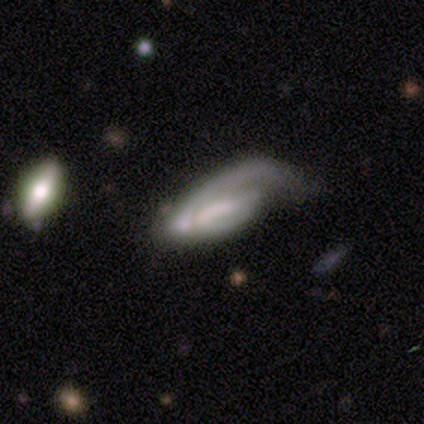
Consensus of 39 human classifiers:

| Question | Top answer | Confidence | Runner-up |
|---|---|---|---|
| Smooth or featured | featured or disk | 64% | smooth (28%) |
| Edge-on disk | no | 96% | yes (4%) |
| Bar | weak | 42% | no (38%) |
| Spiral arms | yes | 75% | no (25%) |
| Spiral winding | tight | 50% | loose (28%) |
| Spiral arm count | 1 | 56% | 2 (22%) |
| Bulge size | none | 50% | moderate (21%) |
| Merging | major disturbance | 58% | none (14%) |